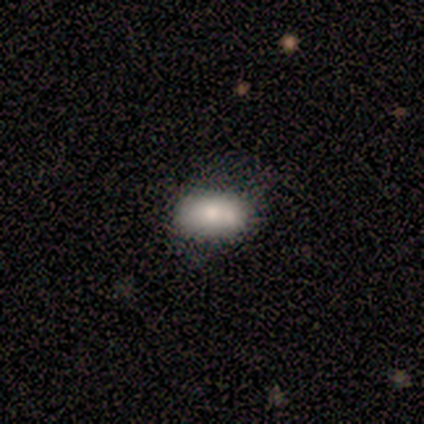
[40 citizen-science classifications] Smooth or featured? 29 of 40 (72%) said smooth. How rounded? 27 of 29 (93%) said in between. Merging? 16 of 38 (42%) said none.